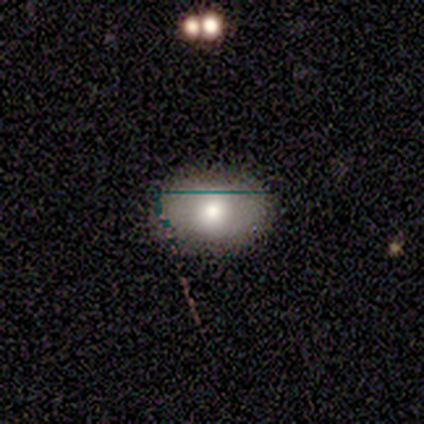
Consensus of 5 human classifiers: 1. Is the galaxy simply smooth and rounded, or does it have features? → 100% smooth, 0% featured or disk, 0% star or artifact.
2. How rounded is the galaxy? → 80% in between, 20% round, 0% cigar-shaped.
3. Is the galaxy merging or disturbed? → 80% none, 20% minor disturbance, 0% major disturbance, 0% merger.